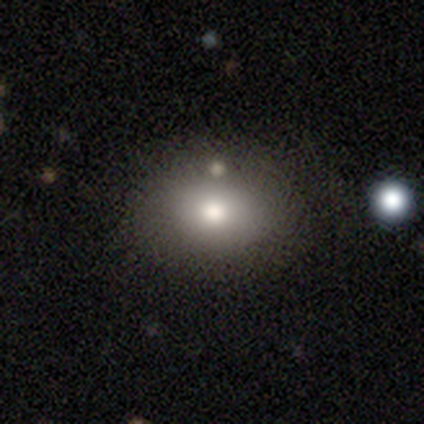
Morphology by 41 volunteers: Volunteers were most divided on "merging": none: 46%, merger: 9%, minor disturbance: 3%, major disturbance: 0%. More confident: smooth or featured — smooth (78%); how rounded — in between (69%).